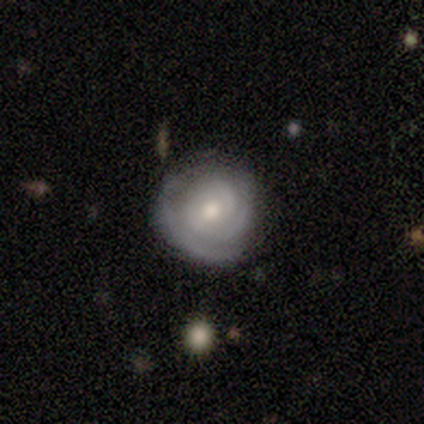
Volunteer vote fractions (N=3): Smooth or featured? featured or disk (100%)
Edge-on disk? no (100%)
Bar? no (100%)
Spiral arms? yes (67%)
Spiral winding? tight (50%, tied with medium)
Spiral arm count? 2 (50%, tied with 3)
Bulge size? moderate (67%)
Merging? none (100%)